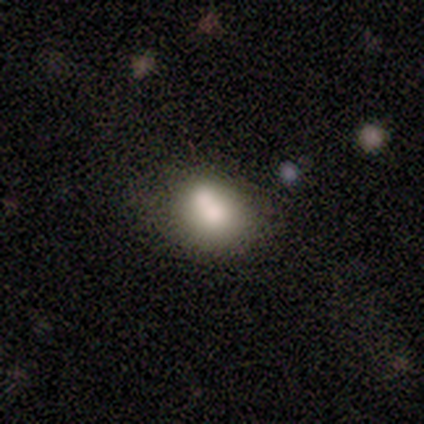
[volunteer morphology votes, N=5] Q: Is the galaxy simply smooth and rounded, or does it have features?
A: smooth — 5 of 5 (100%).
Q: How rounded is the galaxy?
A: round — 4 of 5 (80%).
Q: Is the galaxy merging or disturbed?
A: none — 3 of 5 (60%).